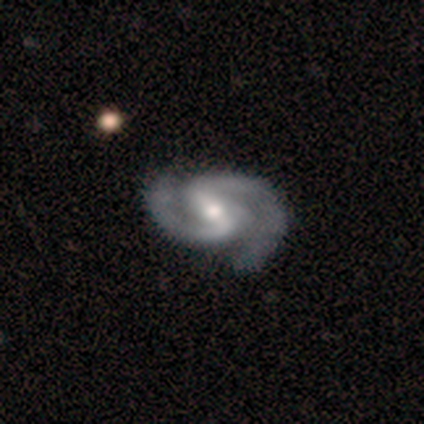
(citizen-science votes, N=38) Volunteers were most divided on "bulge size": moderate: 57%, small: 32%, large: 8%, none: 3%, dominant: 0%. Remaining: edge-on disk — no (100%); spiral arms — yes (100%); smooth or featured — featured or disk (97%); spiral arm count — 2 (97%); spiral winding — medium (68%); bar — strong (59%); merging — none (45%).